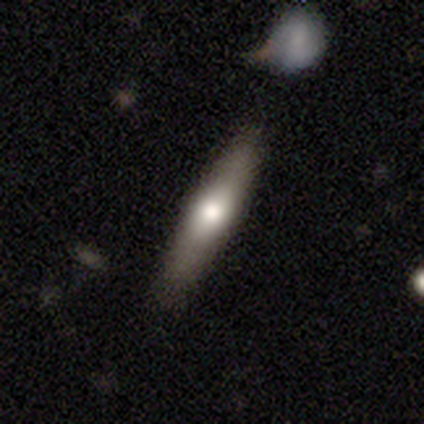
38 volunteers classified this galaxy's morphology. Smooth or featured: smooth — 47% (featured or disk — 42%)
How rounded: cigar-shaped — 89% (round — 6%)
Merging: none — 94% (minor disturbance — 3%)